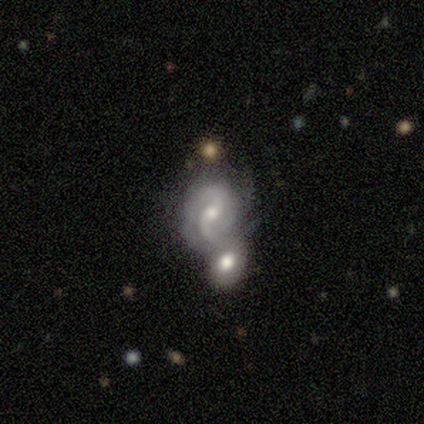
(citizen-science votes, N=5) A featured or disk galaxy (100%) with no bar (75%), 2 (100%) loose (50%) spiral arms (100%) and a small central bulge (75%).

Vote fractions:
- Smooth or featured? featured or disk: 100% / smooth: 0% / star or artifact: 0%
- Edge-on disk? no: 80% / yes: 20%
- Bar? no: 75% / weak: 25% / strong: 0%
- Spiral arms? yes: 100% / no: 0%
- Spiral winding? loose: 50% / tight: 25% / medium: 25%
- Spiral arm count? 2: 100% / 1: 0% / 3: 0% / 4: 0% / more than 4: 0% / can't tell: 0%
- Bulge size? small: 75% / moderate: 25% / dominant: 0% / large: 0% / none: 0%
- Merging? merger: 60% / none: 20% / minor disturbance: 20% / major disturbance: 0%